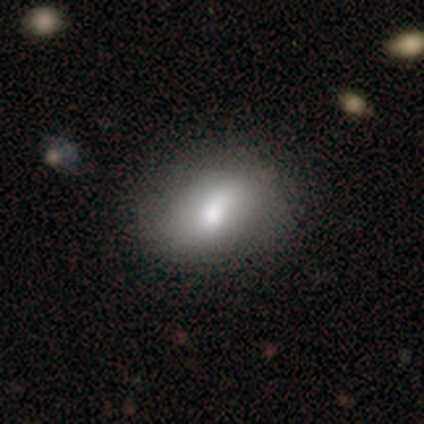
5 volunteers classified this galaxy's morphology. Overall: smooth (80%). How rounded: in between (100%). Merging: none (60%; minor disturbance 40%).